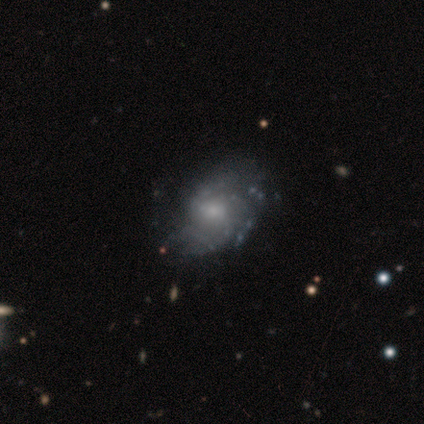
smooth_or_featured: featured or disk (p=0.86) [alt: smooth p=0.08]
disk_edge_on: no (p=1.00)
bar: no (p=0.69) [alt: weak p=0.25]
has_spiral_arms: yes (p=0.75) [alt: no p=0.25]
spiral_winding: tight (p=0.38) [alt: loose p=0.33]
spiral_arm_count: can't tell (p=0.38) [alt: 3 p=0.25]
bulge_size: small (p=0.62) [alt: moderate p=0.34]
merging: none (p=0.43) [alt: minor disturbance p=0.14]